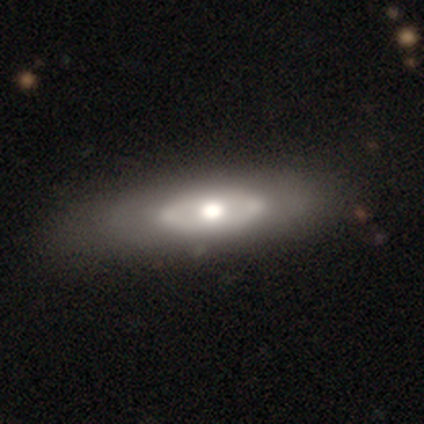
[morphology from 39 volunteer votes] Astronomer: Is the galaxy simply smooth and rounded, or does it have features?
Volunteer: featured or disk — 56% (runner-up: smooth, 41%).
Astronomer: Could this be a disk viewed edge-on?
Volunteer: no — 86%.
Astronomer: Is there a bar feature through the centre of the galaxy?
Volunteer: no — 89%.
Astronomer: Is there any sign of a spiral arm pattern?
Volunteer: no — 95%.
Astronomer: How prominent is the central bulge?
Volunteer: moderate — 53% (runner-up: large, 32%).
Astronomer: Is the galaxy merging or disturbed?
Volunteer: none — 42% (runner-up: minor disturbance, 18%).